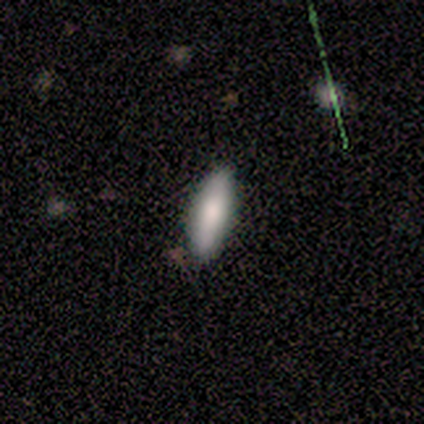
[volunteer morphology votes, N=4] Smooth or featured? smooth (50%, tied with featured or disk)
How rounded? cigar-shaped (100%)
Merging? none (100%)